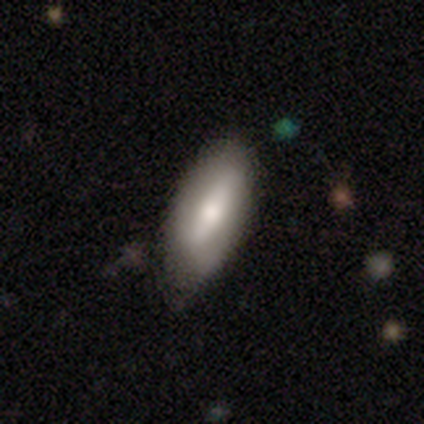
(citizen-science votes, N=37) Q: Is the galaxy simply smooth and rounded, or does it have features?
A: smooth — 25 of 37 (68%).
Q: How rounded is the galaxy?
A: in between — 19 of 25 (76%).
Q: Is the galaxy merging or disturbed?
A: none — 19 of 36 (53%).